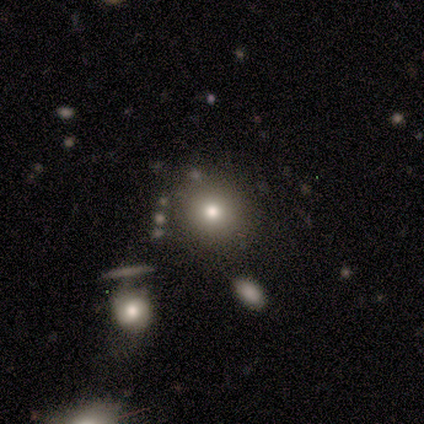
Morphology: type=smooth (78%); roundness=round (86%); merging=none (88%).